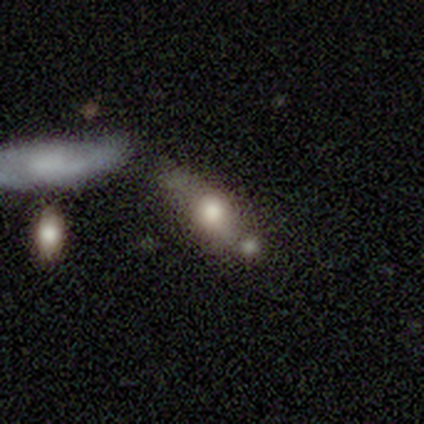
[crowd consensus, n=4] This appears to be a smooth galaxy with no disk features (50%, tied with featured or disk) that is round (50%, tied with in between). Merging: merger (75%).